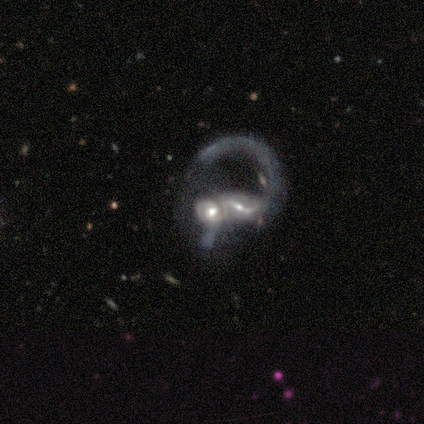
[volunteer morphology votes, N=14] smooth_or_featured: featured or disk (p=0.93) [alt: smooth p=0.07]
disk_edge_on: no (p=1.00)
bar: strong (p=0.46) [alt: weak p=0.38]
has_spiral_arms: yes (p=0.85) [alt: no p=0.15]
spiral_winding: loose (p=0.55) [alt: medium p=0.36]
spiral_arm_count: 2 (p=0.45) [alt: 1 p=0.27]
bulge_size: moderate (p=0.54) [alt: large p=0.23]
merging: merger (p=0.93) [alt: none p=0.07]